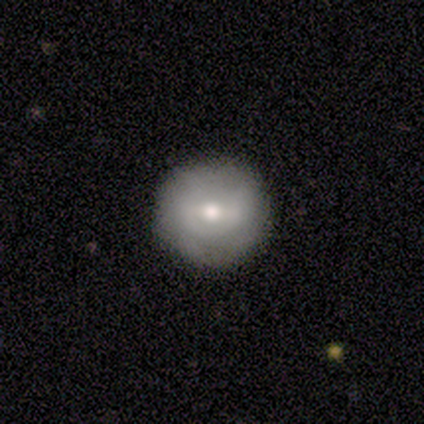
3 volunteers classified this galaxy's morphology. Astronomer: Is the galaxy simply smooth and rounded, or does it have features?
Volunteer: smooth — 100%.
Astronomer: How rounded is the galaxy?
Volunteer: round — 100%.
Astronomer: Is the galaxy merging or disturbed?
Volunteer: none — 100%.